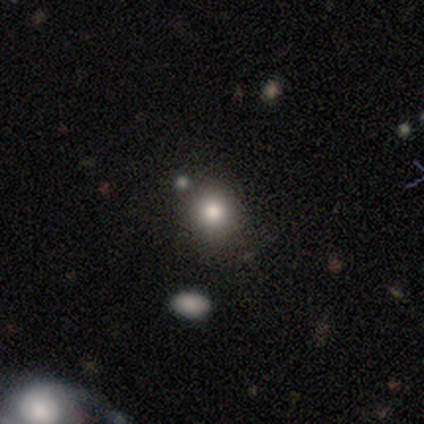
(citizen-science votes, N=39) Volunteers were most divided on "smooth or featured": smooth: 74%, star or artifact: 18%, featured or disk: 8%. More confident: how rounded — round (86%); merging — none (84%).